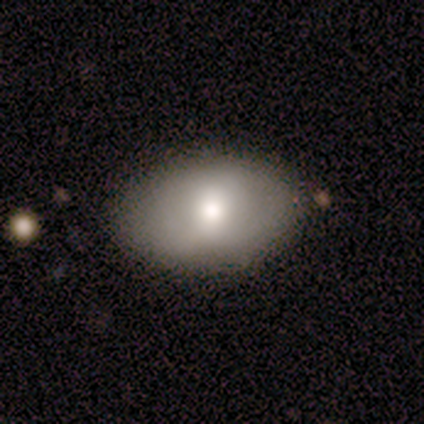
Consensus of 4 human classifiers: smooth_or_featured: smooth (p=1.00)
how_rounded: in between (p=1.00)
merging: none (p=0.50) [tied with: minor disturbance p=0.50]